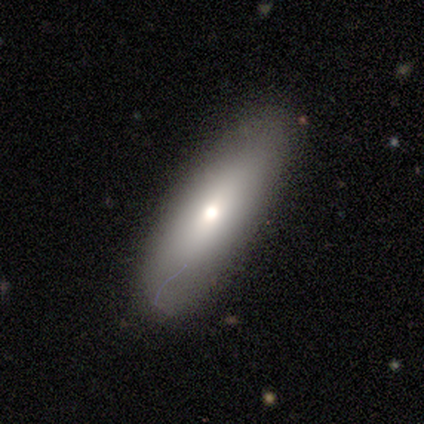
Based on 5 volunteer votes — Smooth or featured?
  - smooth: 80% *
  - featured or disk: 20%
  - star or artifact: 0%
How rounded?
  - in between: 75% *
  - round: 25%
  - cigar-shaped: 0%
Merging?
  - none: 80% *
  - minor disturbance: 20%
  - major disturbance: 0%
  - merger: 0%